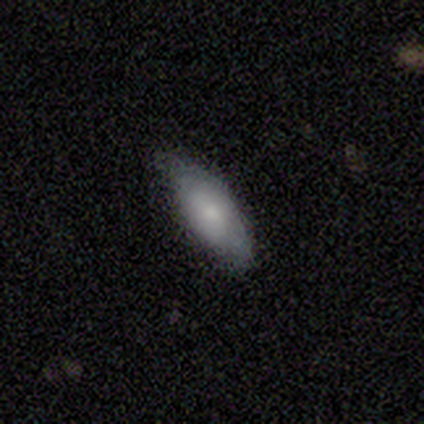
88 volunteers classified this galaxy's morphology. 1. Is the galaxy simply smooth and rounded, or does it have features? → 74% smooth, 19% featured or disk, 7% star or artifact.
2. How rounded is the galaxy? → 78% in between, 22% cigar-shaped, 0% round.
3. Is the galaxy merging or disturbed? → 76% none, 18% minor disturbance, 5% major disturbance, 1% merger.